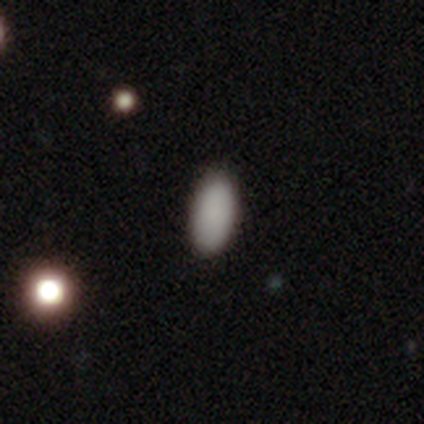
Q: Smooth or featured?
A: smooth (100%)
Q: How rounded?
A: in between (80%); runner-up: cigar-shaped (20%)
Q: Merging?
A: none (80%); runner-up: minor disturbance (20%)